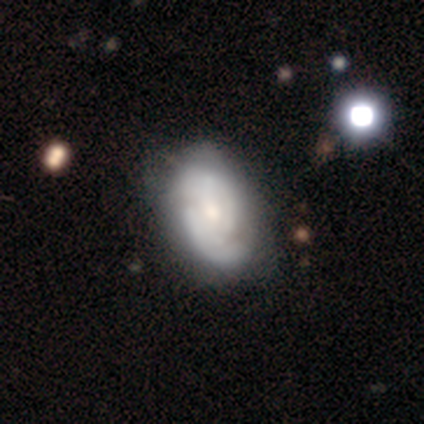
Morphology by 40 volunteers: Smooth or featured?
  - featured or disk: 72% *
  - smooth: 25%
  - star or artifact: 2%
Edge-on disk?
  - no: 100% *
  - yes: 0%
Bar?
  - no: 69% *
  - weak: 31%
  - strong: 0%
Spiral arms?
  - yes: 90% *
  - no: 10%
Spiral winding?
  - tight: 54% *
  - medium: 23%
  - loose: 23%
Spiral arm count?
  - 2: 62% *
  - can't tell: 35%
  - 1: 4%
  - 3: 0%
  - 4: 0%
  - more than 4: 0%
Bulge size?
  - small: 48% *
  - moderate: 41%
  - large: 7%
  - none: 3%
  - dominant: 0%
Merging?
  - none: 31% *
  - minor disturbance: 28%
  - major disturbance: 8%
  - merger: 5%